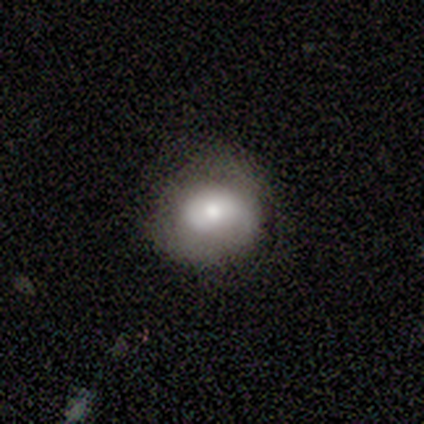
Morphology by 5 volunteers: Smooth or featured? 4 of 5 (80%) said smooth. How rounded? 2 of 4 (50%, tied with in between) said round. Merging? 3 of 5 (60%) said minor disturbance.